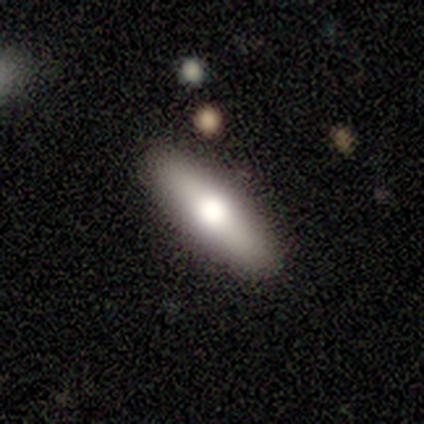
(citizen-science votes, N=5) Smooth or featured? smooth (80%)
How rounded? cigar-shaped (75%)
Merging? none (100%)